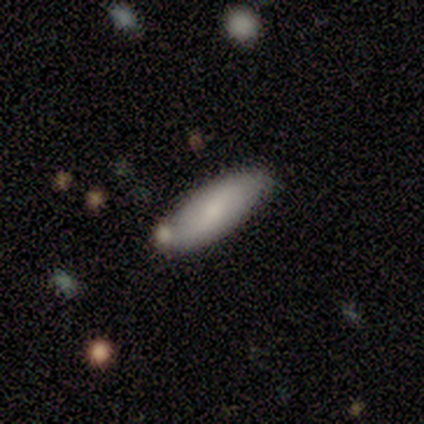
Q: Smooth or featured?
A: smooth (80%); runner-up: featured or disk (20%)
Q: How rounded?
A: in between (75%); runner-up: cigar-shaped (25%)
Q: Merging?
A: none (100%)